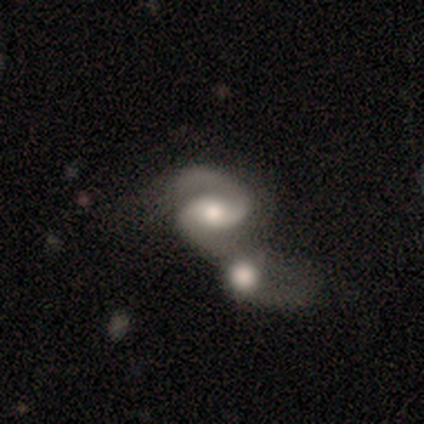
Smooth or featured?
  - featured or disk: 100% *
  - smooth: 0%
  - star or artifact: 0%
Edge-on disk?
  - no: 100% *
  - yes: 0%
Bar?
  - weak: 57% *
  - no: 43%
  - strong: 0%
Spiral arms?
  - yes: 86% *
  - no: 14%
Spiral winding?
  - medium: 67% *
  - loose: 33%
  - tight: 0%
Spiral arm count?
  - 2: 83% *
  - 1: 17%
  - 3: 0%
  - 4: 0%
  - more than 4: 0%
  - can't tell: 0%
Bulge size?
  - moderate: 71% *
  - small: 29%
  - dominant: 0%
  - large: 0%
  - none: 0%
Merging?
  - merger: 86% *
  - none: 14%
  - minor disturbance: 0%
  - major disturbance: 0%